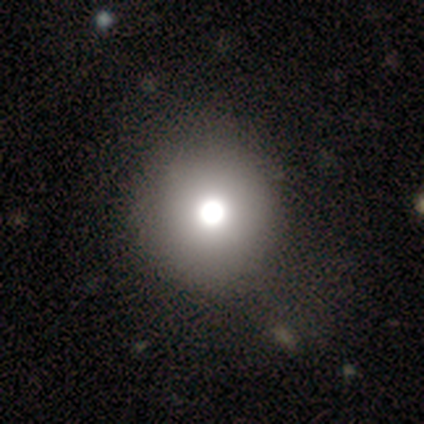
featured or disk 60%, smooth 40%, star or artifact 0%. Down the decision tree: edge-on disk — no (67%); bar — no (100%); spiral arms — no (100%); bulge size — large (50%, tied with moderate); merging — none (80%).